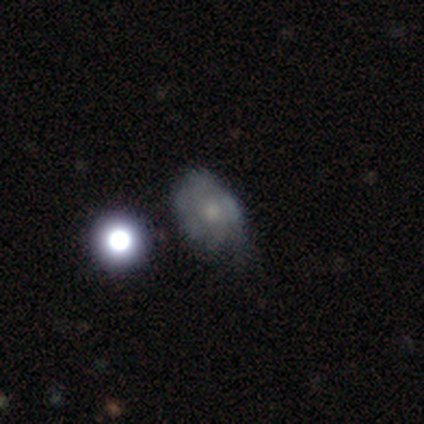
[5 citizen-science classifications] A featured or disk galaxy (60%) with no bar (100%), 2 (50%, tied with can't tell) tight (100%) spiral arms (67%) and a moderate central bulge (100%). Merging: minor disturbance (40%, tied with major disturbance).